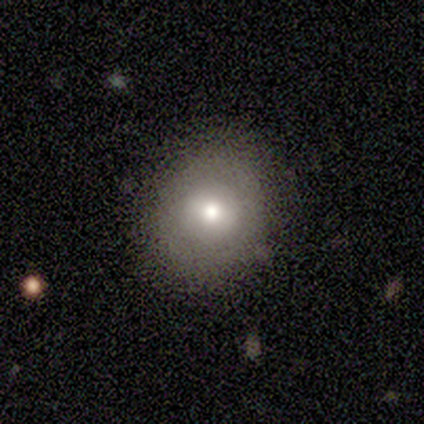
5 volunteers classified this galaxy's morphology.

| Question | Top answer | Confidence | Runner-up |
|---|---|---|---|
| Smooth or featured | smooth | 40% | tied: featured or disk (40%) |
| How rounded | round | 50% | tied: in between (50%) |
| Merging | none | 100% | — |